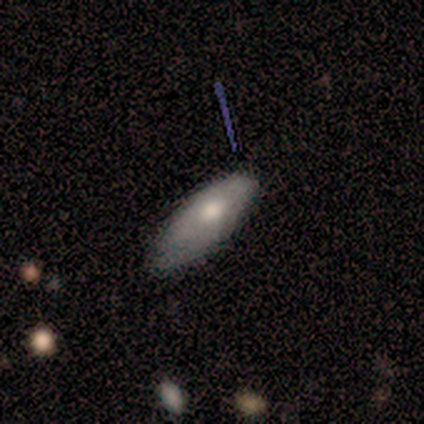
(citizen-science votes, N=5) Smooth or featured: smooth — 60% (featured or disk — 40%)
How rounded: in between — 100%
Merging: none — 40% (tied with minor disturbance — 40%)